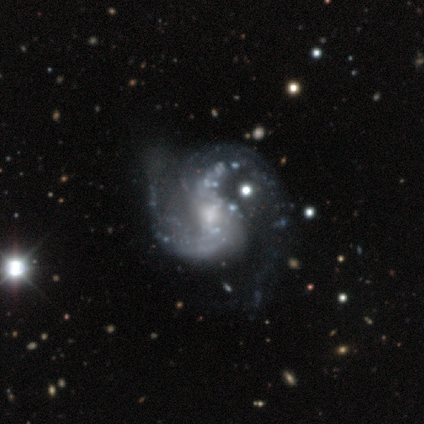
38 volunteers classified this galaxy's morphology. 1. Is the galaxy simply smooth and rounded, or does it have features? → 92% featured or disk, 8% star or artifact, 0% smooth.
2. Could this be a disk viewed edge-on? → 100% no, 0% yes.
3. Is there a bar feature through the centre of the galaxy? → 57% no, 40% weak, 3% strong.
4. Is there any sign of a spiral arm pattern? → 97% yes, 3% no.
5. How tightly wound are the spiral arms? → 47% medium, 38% loose, 15% tight.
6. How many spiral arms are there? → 91% 2, 6% can't tell, 3% 3, 0% 1, 0% 4, 0% more than 4.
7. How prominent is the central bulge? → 46% small, 40% moderate, 11% none, 3% large, 0% dominant.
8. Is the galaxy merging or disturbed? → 37% none, 29% major disturbance, 26% minor disturbance, 9% merger.